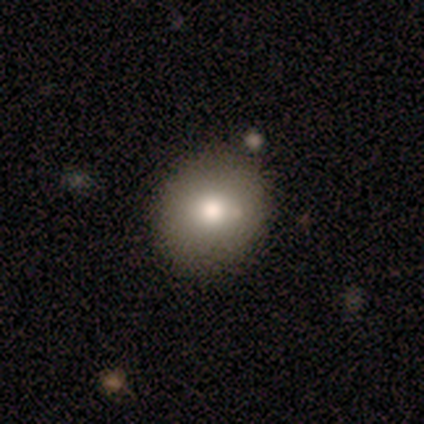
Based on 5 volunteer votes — A smooth galaxy with no disk features (80%) that is round (50%, tied with in between).

Vote fractions:
- Smooth or featured? smooth: 80% / star or artifact: 20% / featured or disk: 0%
- How rounded? round: 50% (tied) / in between: 50% (tied) / cigar-shaped: 0%
- Merging? none: 75% / minor disturbance: 25% / major disturbance: 0% / merger: 0%